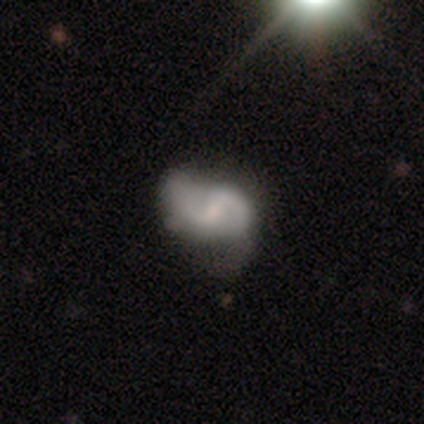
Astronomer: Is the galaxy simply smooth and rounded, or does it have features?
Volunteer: featured or disk — 71%.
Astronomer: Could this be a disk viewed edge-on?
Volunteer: no — 99%.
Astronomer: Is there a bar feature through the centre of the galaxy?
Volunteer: weak — 56% (runner-up: no, 35%).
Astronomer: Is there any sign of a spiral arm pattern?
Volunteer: yes — 94%.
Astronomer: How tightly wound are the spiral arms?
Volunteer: loose — 50% (runner-up: medium, 38%).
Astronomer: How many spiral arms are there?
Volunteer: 2 — 92%.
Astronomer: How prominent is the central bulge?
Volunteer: small — 44% (runner-up: moderate, 34%).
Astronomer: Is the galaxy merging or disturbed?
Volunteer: none — 60%.